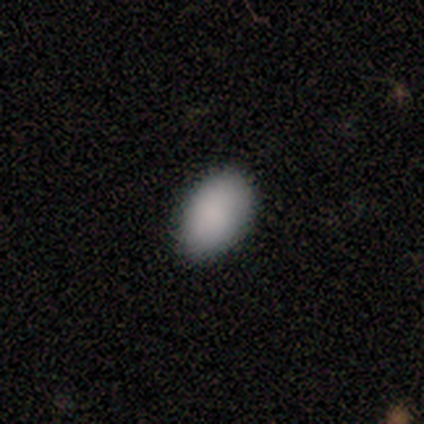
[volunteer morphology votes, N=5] smooth-or-featured: smooth: 100% | featured or disk: 0% | star or artifact: 0%
  how-rounded: in between: 80% | round: 20% | cigar-shaped: 0%
  merging: none: 80% | minor disturbance: 20% | major disturbance: 0% | merger: 0%